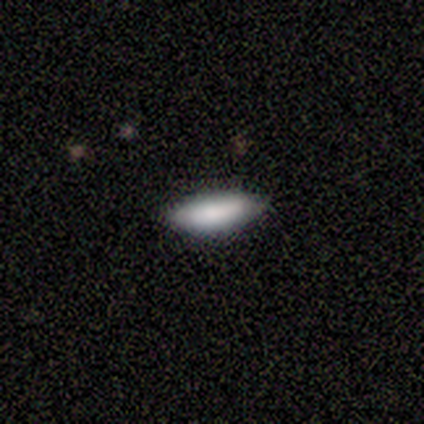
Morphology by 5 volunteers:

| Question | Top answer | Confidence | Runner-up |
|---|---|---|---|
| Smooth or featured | smooth | 80% | featured or disk (20%) |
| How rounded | in between | 50% | tied: cigar-shaped (50%) |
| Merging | none | 100% | — |